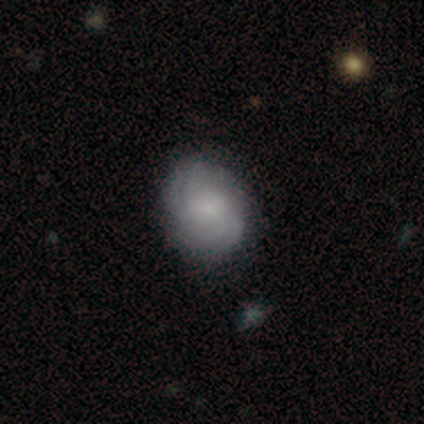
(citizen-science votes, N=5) Morphology: type=featured or disk (80%); edge-on=no (100%); bar=no (100%); spiral arms=yes (100%); winding=tight (100%); arm count=4 (50%); bulge=small (75%); merging=none (80%).